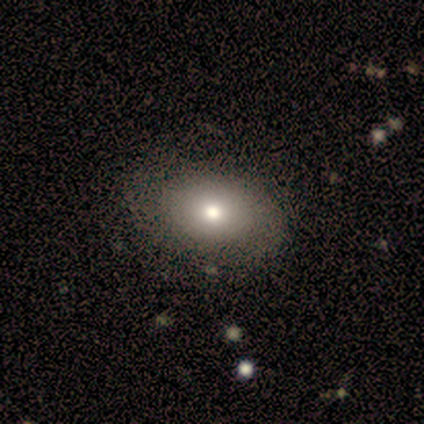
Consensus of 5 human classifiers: A smooth galaxy with no disk features (80%) that is in between round and cigar-shaped (75%). Merging: none (100%).